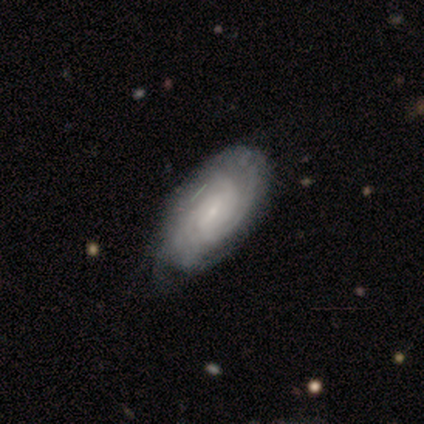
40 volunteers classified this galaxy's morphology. A featured or disk galaxy (82%) with no bar (50%), tight (74%) spiral arms (97%) and a small central bulge (88%).

Vote fractions:
- Smooth or featured? featured or disk: 82% / smooth: 15% / star or artifact: 2%
- Edge-on disk? no: 97% / yes: 3%
- Bar? no: 50% / weak: 44% / strong: 6%
- Spiral arms? yes: 97% / no: 3%
- Spiral winding? tight: 74% / medium: 26% / loose: 0%
- Spiral arm count? can't tell: 45% / 3: 32% / 2: 10% / 4: 10% / more than 4: 3% / 1: 0%
- Bulge size? small: 88% / moderate: 9% / none: 3% / dominant: 0% / large: 0%
- Merging? none: 41% / minor disturbance: 21% / major disturbance: 5% / merger: 3%